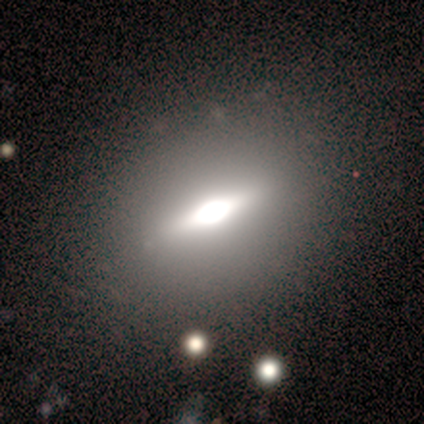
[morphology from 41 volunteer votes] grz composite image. It shows a featured or disk galaxy (61%) viewed edge-on (92%) with a rounded central bulge (83%). Merging: none (89%).